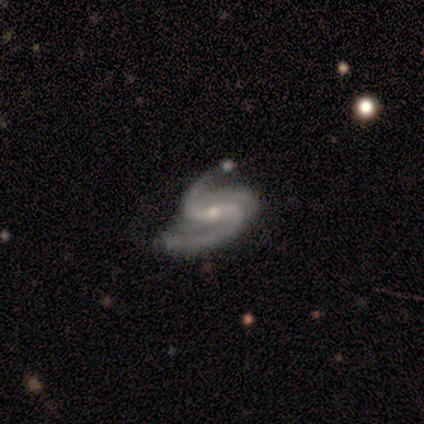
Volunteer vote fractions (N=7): Q: Smooth or featured?
A: featured or disk (86%); runner-up: star or artifact (14%)
Q: Edge-on disk?
A: no (100%)
Q: Bar?
A: no (50%); runner-up: weak (33%)
Q: Spiral arms?
A: yes (100%)
Q: Spiral winding?
A: medium (100%)
Q: Spiral arm count?
A: 2 (100%)
Q: Bulge size?
A: small (100%)
Q: Merging?
A: none (83%); runner-up: minor disturbance (17%)